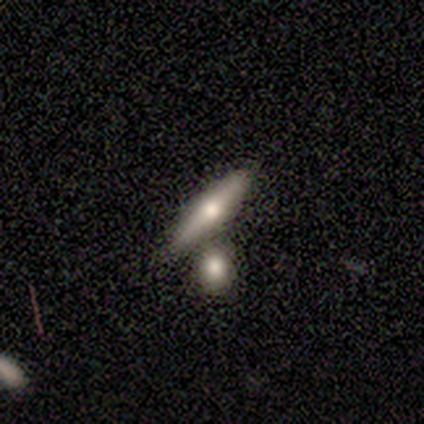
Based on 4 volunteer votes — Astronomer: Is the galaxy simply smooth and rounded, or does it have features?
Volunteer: smooth — 75%.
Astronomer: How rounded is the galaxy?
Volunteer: cigar-shaped — 100%.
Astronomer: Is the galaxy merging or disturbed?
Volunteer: none — 50%, tied with merger at 50%.